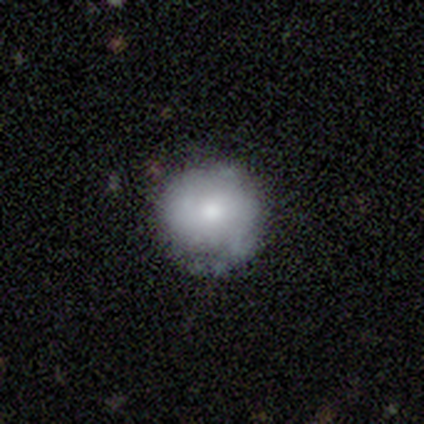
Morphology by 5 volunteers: Smooth or featured? smooth (100%)
How rounded? round (100%)
Merging? none (80%)